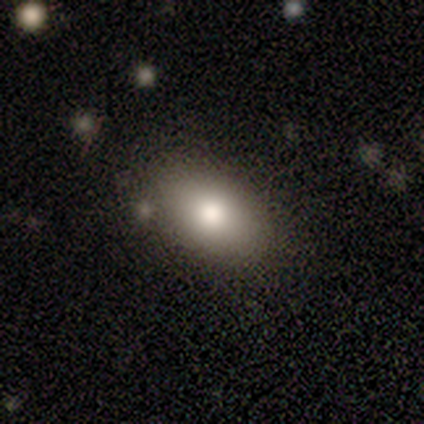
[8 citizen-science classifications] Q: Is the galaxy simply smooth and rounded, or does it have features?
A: smooth — 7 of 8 (88%).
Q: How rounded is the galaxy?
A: in between — 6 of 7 (86%).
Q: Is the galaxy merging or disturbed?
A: none — 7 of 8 (88%).